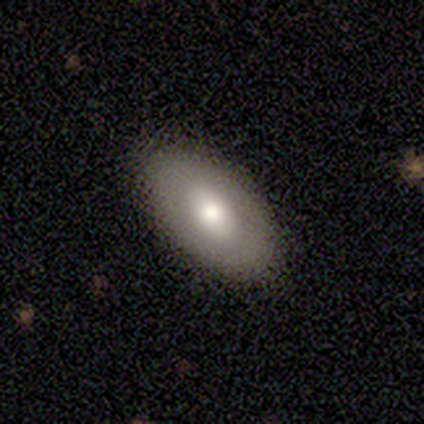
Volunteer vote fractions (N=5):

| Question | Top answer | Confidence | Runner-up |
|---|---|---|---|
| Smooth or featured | smooth | 60% | featured or disk (20%) |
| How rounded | in between | 100% | — |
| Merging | none | 100% | — |